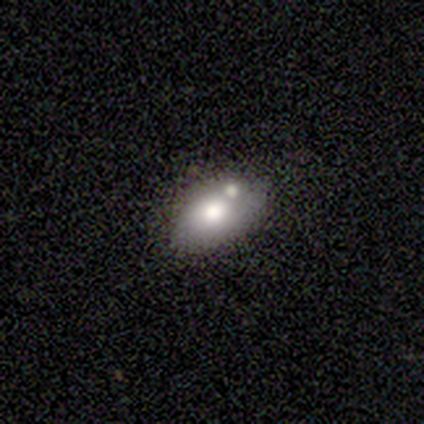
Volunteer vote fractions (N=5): Smooth or featured: featured or disk — 60% (smooth — 40%)
Edge-on disk: no — 100%
Bar: no — 67% (strong — 33%)
Spiral arms: no — 100%
Bulge size: moderate — 67% (small — 33%)
Merging: minor disturbance — 80% (merger — 20%)